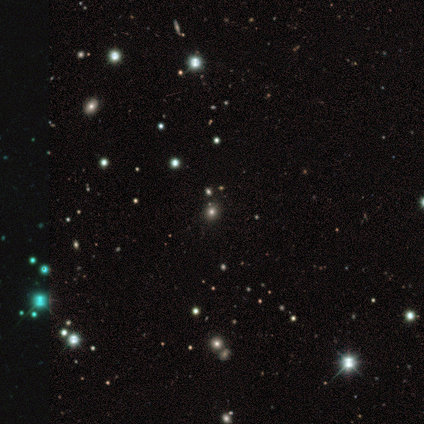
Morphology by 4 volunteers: smooth-or-featured: star or artifact: 75% | smooth: 25% | featured or disk: 0%